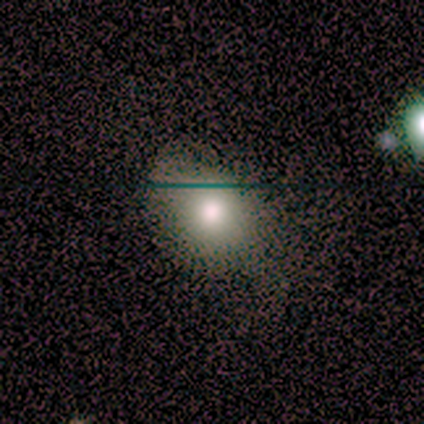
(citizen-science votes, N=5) Morphology: type=smooth (100%); roundness=in between (100%); merging=none (60%).